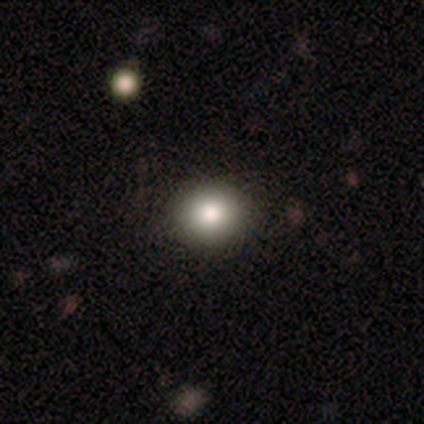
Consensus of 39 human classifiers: This is clearly a smooth galaxy (82%). How rounded: clearly round (91%). Merging: clearly none (81%).